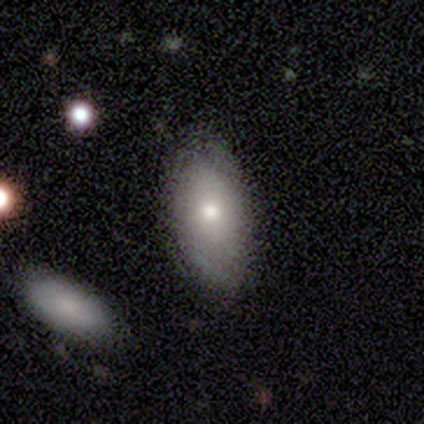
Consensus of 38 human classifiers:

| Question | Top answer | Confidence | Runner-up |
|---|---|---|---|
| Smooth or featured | smooth | 76% | star or artifact (13%) |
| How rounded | in between | 97% | cigar-shaped (3%) |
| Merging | none | 79% | minor disturbance (15%) |